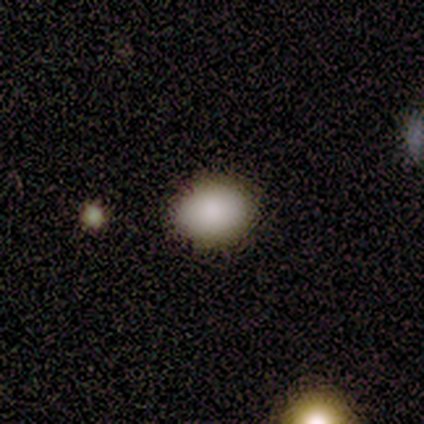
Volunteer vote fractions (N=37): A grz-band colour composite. It shows a smooth galaxy with no disk features (84%) that is in between round and cigar-shaped (65%). Merging: none (84%).